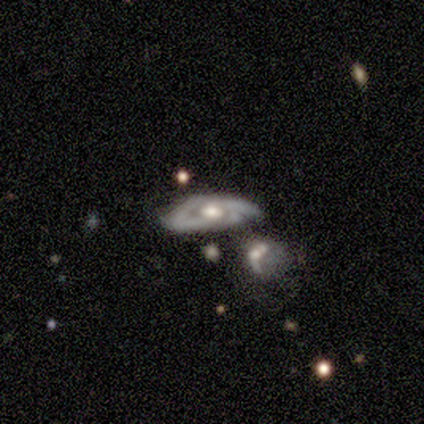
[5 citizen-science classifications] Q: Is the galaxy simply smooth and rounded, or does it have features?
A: featured or disk — 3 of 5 (60%).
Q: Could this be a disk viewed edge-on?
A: no — 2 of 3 (67%).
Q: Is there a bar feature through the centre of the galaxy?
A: weak — 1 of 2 (50%, tied with no).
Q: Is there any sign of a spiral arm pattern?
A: yes — 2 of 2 (100%).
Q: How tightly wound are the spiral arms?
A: tight — 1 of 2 (50%, tied with medium).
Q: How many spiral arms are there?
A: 2 — 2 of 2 (100%).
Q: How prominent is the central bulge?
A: moderate — 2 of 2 (100%).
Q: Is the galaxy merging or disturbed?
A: minor disturbance — 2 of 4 (50%).